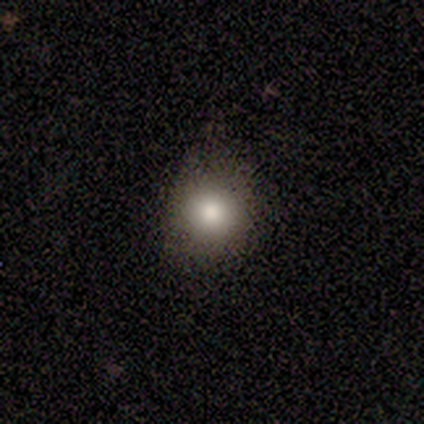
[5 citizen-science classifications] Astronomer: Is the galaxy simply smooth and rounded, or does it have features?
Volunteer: smooth — 100%.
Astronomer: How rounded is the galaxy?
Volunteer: round — 100%.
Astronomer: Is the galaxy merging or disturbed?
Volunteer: none — 100%.